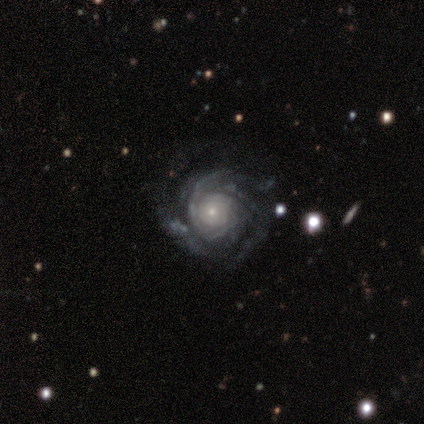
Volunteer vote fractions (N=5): Smooth or featured? 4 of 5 (80%) said featured or disk. Edge-on disk? 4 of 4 (100%) said no. Bar? 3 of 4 (75%) said no. Spiral arms? 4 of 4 (100%) said yes. Spiral winding? 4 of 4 (100%) said tight. Spiral arm count? 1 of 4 (25%, tied with 3, more than 4 and can't tell) said 2. Bulge size? 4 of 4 (100%) said small. Merging? 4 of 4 (100%) said none.